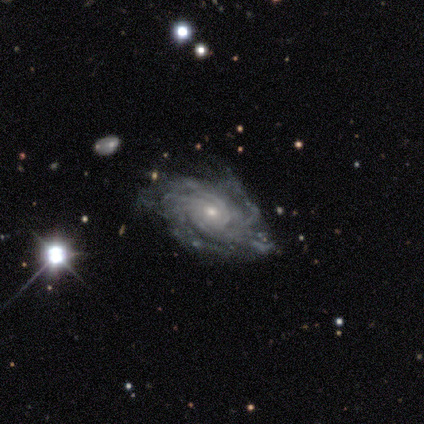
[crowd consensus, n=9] A featured or disk galaxy (100%) with no bar (78%), tight (75%) spiral arms (89%) and a small central bulge (89%). Merging: minor disturbance (56%).